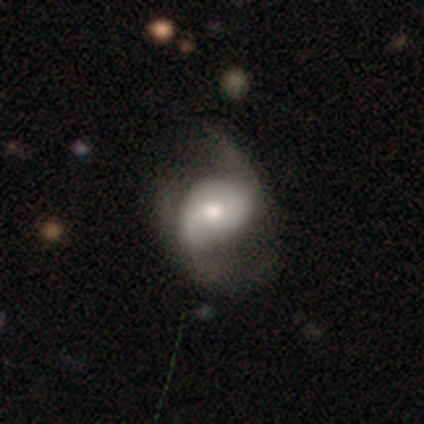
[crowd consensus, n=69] Volunteers were most divided on "merging": major disturbance: 40%, minor disturbance: 30%, none: 27%, merger: 3%. More confident: edge-on disk — no (94%); spiral arms — yes (86%); spiral arm count — 2 (82%); smooth or featured — featured or disk (68%); bar — no (59%); bulge size — moderate (59%); spiral winding — loose (53%).